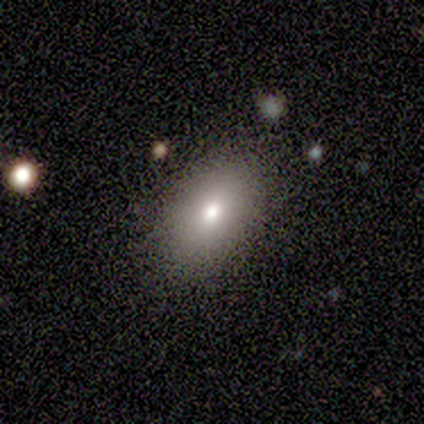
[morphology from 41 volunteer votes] smooth 83%, featured or disk 12%, star or artifact 5%. Down the decision tree: how rounded — in between (91%); merging — none (87%).